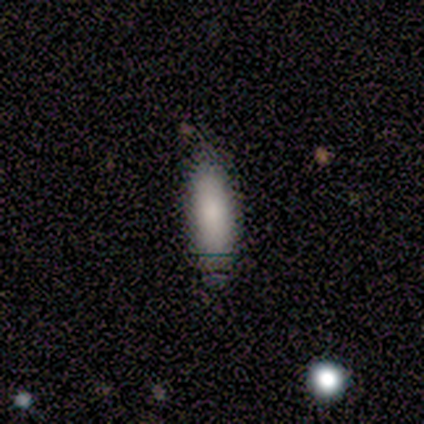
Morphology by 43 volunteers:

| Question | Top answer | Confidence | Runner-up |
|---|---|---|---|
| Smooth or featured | smooth | 77% | featured or disk (12%) |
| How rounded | in between | 55% | cigar-shaped (45%) |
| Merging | none | 89% | minor disturbance (8%) |